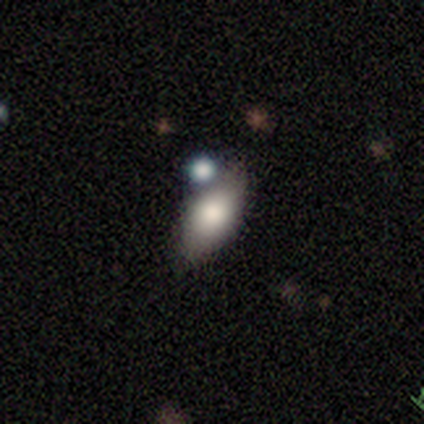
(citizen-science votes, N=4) Overall: smooth (100%). How rounded: in between (75%). Merging: none (50%; minor disturbance 25%).